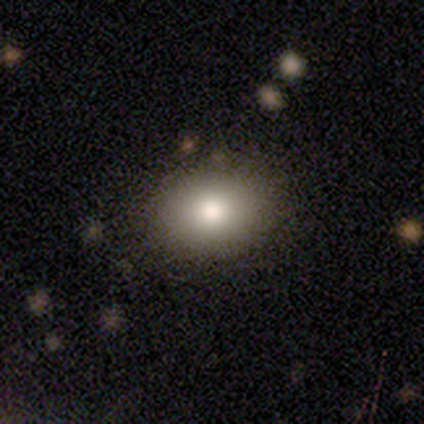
smooth 80%, star or artifact 20%, featured or disk 0%. Down the decision tree: how rounded — round (50%, tied with in between); merging — none (100%).